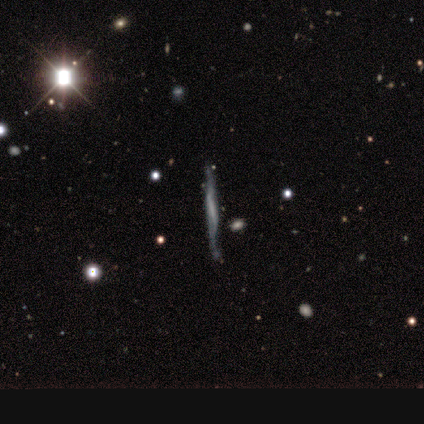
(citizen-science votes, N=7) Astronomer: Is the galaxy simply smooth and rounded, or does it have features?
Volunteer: featured or disk — 86%.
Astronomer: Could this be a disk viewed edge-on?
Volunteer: yes — 83%.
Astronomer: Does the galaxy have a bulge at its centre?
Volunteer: none — 60% (runner-up: boxy, 40%).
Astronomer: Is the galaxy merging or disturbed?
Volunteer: none — 100%.